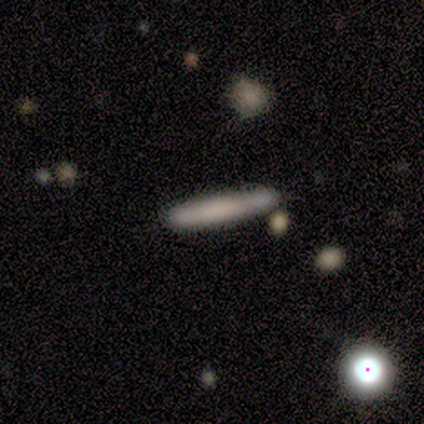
Smooth or featured? 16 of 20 (80%) said smooth. How rounded? 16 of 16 (100%) said cigar-shaped. Merging? 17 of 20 (85%) said none.